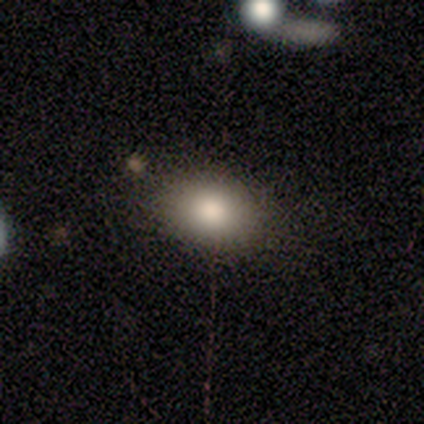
A smooth galaxy with no disk features (60%) that is in between round and cigar-shaped (67%).

Vote fractions:
- Smooth or featured? smooth: 60% / featured or disk: 40% / star or artifact: 0%
- How rounded? in between: 67% / round: 33% / cigar-shaped: 0%
- Merging? none: 100% / minor disturbance: 0% / major disturbance: 0% / merger: 0%